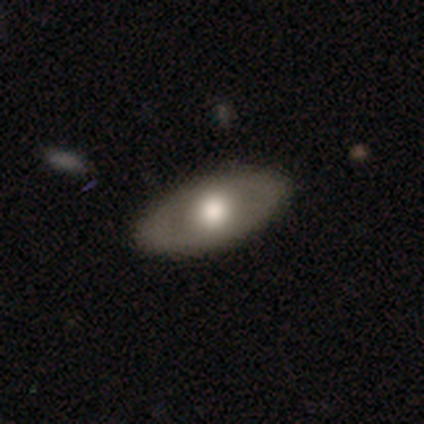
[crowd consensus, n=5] Q: Smooth or featured?
A: smooth (40%); tied with: featured or disk (40%)
Q: How rounded?
A: in between (50%); tied with: cigar-shaped (50%)
Q: Merging?
A: none (75%); runner-up: merger (25%)